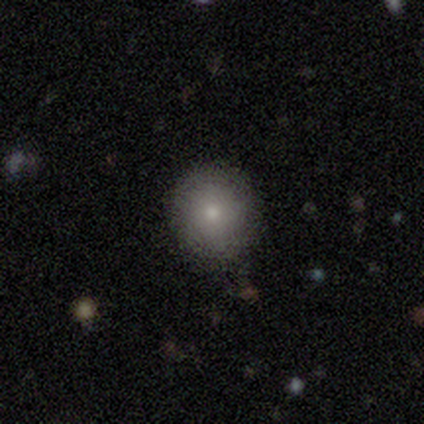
Q: Smooth or featured?
A: smooth (80%); runner-up: star or artifact (20%)
Q: How rounded?
A: round (75%); runner-up: in between (25%)
Q: Merging?
A: none (75%); runner-up: minor disturbance (25%)